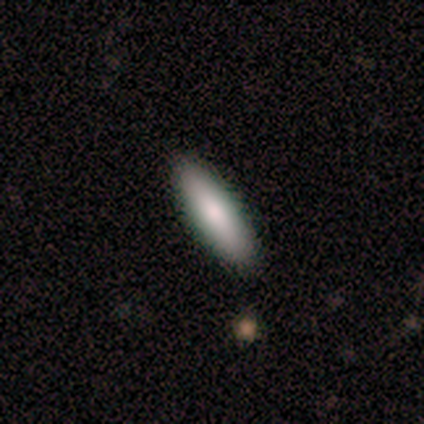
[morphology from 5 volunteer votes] type=smooth (100%); roundness=in between (60%); merging=none (100%).